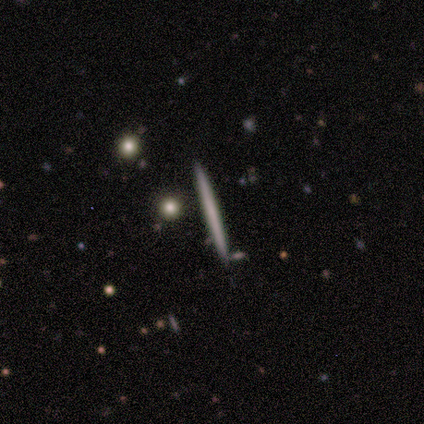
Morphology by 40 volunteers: This is possibly a smooth galaxy (48%). How rounded: clearly cigar-shaped (100%). Merging: clearly none (94%).